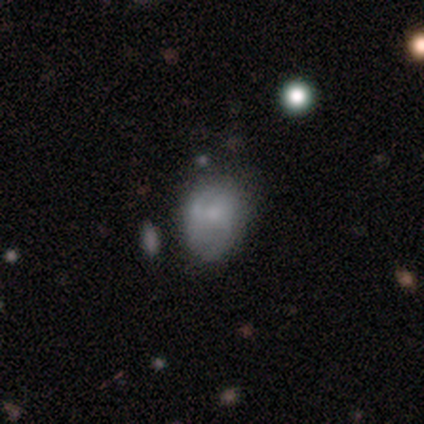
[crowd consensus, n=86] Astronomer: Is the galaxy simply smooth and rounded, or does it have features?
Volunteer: smooth — 42% (runner-up: featured or disk, 40%).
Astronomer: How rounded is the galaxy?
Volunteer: in between — 81%.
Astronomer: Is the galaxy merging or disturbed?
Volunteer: none — 60%.